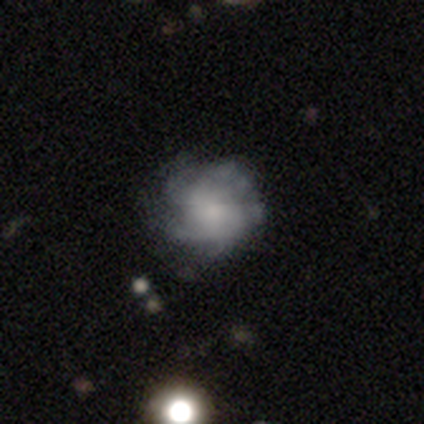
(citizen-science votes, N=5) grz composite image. It shows a featured or disk galaxy (80%) with a weak bar (50%, tied with no), tight (33%, tied with medium and loose) spiral arms (75%) and a small central bulge (75%). Merging: none (60%).